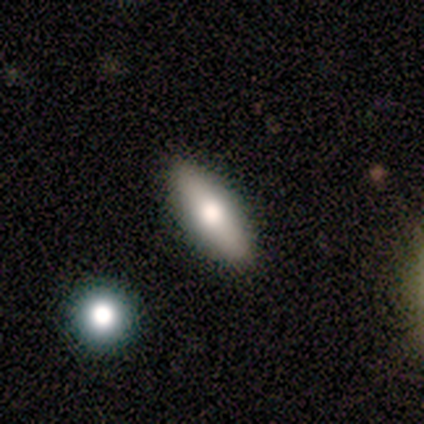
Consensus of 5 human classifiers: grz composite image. It shows a smooth galaxy with no disk features (80%) that is in between round and cigar-shaped (50%, tied with cigar-shaped). Merging: none (80%).